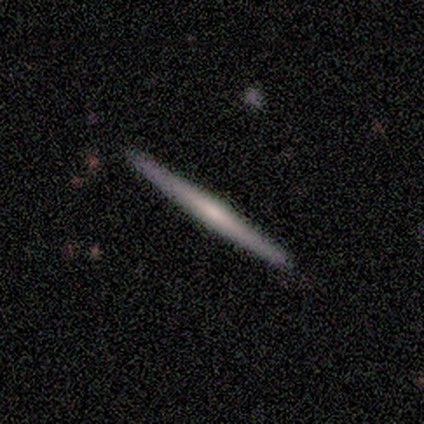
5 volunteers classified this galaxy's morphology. Q: Smooth or featured?
A: featured or disk (80%); runner-up: smooth (20%)
Q: Edge-on disk?
A: yes (100%)
Q: Edge-on bulge?
A: none (100%)
Q: Merging?
A: none (100%)